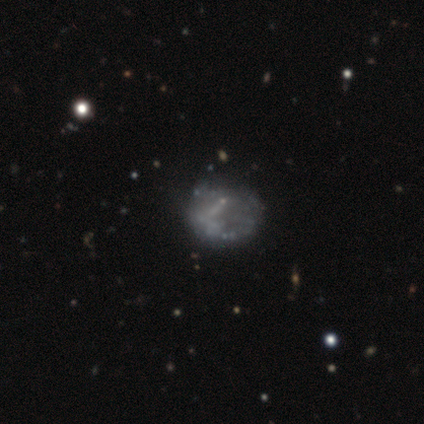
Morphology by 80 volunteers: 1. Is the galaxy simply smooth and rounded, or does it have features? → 65% featured or disk, 24% smooth, 11% star or artifact.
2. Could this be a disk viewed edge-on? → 100% no, 0% yes.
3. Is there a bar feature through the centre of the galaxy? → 77% no, 17% weak, 6% strong.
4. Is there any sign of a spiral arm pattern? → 90% no, 10% yes.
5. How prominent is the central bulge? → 77% none, 19% small, 2% dominant, 2% moderate, 0% large.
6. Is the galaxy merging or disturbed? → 25% none, 15% minor disturbance, 7% major disturbance, 3% merger.